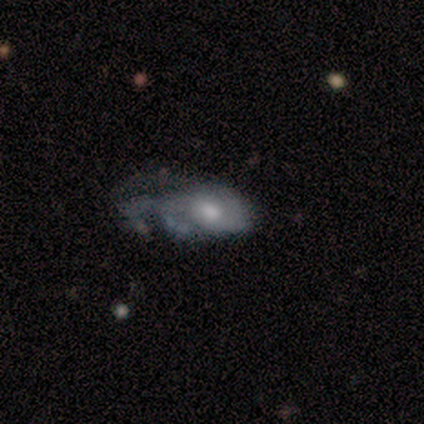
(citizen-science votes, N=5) A smooth galaxy with no disk features (60%) that is in between round and cigar-shaped (67%). Merging: minor disturbance (40%, tied with major disturbance).